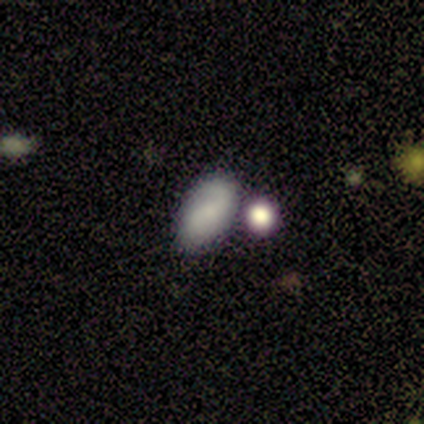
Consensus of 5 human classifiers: Morphology: type=smooth (80%); roundness=in between (75%); merging=merger (60%).